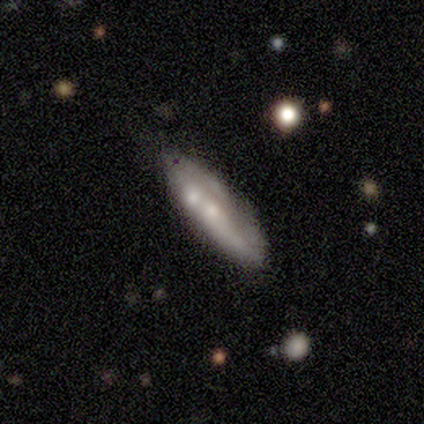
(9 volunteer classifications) A smooth galaxy with no disk features (56%) that is in between round and cigar-shaped (60%).

Vote fractions:
- Smooth or featured? smooth: 56% / featured or disk: 44% / star or artifact: 0%
- How rounded? in between: 60% / cigar-shaped: 40% / round: 0%
- Merging? minor disturbance: 56% / none: 22% / merger: 22% / major disturbance: 0%